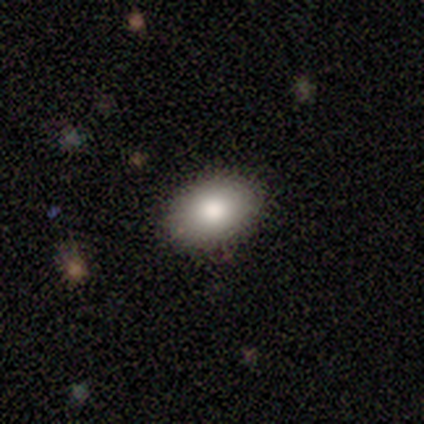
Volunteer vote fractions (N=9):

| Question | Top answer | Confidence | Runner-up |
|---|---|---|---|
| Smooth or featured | smooth | 67% | featured or disk (33%) |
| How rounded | in between | 100% | — |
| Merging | none | 67% | minor disturbance (22%) |